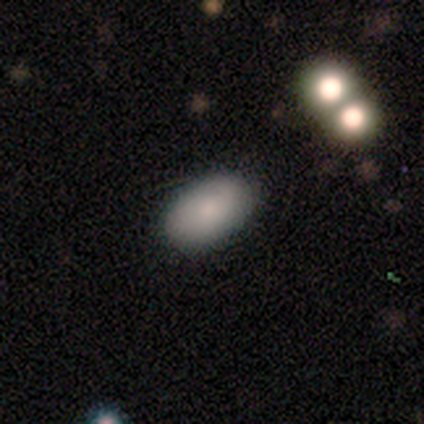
Volunteers were most divided on "how rounded": in between: 89%, round: 9%, cigar-shaped: 3%. More confident: merging — none (92%); smooth or featured — smooth (88%).